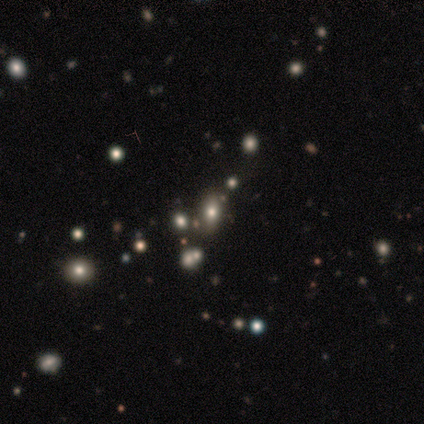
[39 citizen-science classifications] smooth_or_featured: smooth (p=0.51) [alt: star or artifact p=0.44]
how_rounded: in between (p=0.75) [alt: round p=0.25]
merging: none (p=0.77) [alt: merger p=0.18]